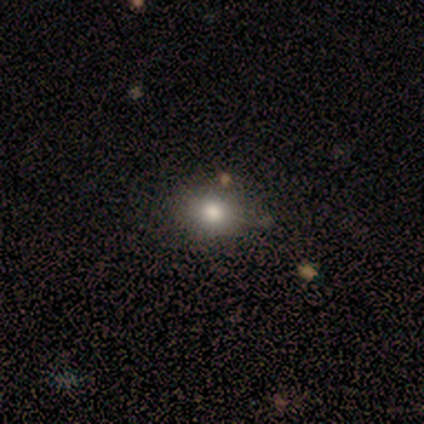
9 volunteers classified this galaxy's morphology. Volunteers were most divided on "how rounded": round: 56%, in between: 44%, cigar-shaped: 0%. More confident: smooth or featured — smooth (100%); merging — none (78%).